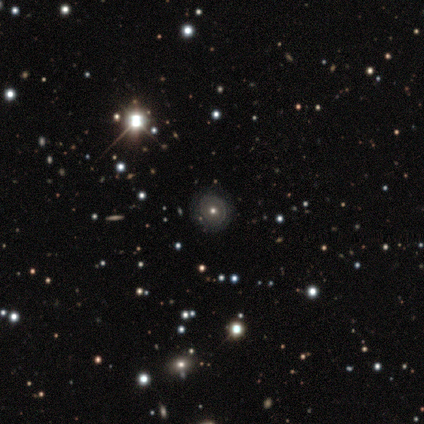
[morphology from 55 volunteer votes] A featured or disk galaxy (45%) with no bar (100%), no spiral arms (80%) and a moderate central bulge (64%). Merging: none (88%).